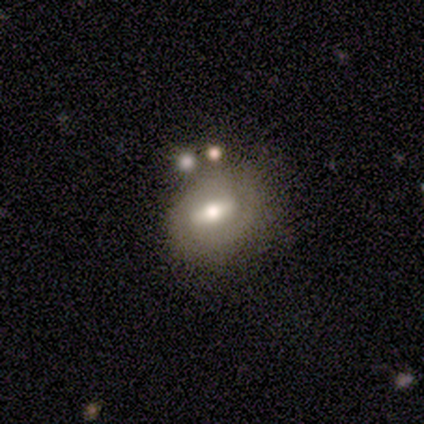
Overall: featured or disk (62%; smooth 34%). Edge-on disk: no (89%). Bar: strong (66%; weak 28%). Spiral arms: yes (50%, tied with no). Spiral arm count: 2 (69%). Spiral winding: tight (81%). Bulge size: moderate (75%). Merging: none (61%).